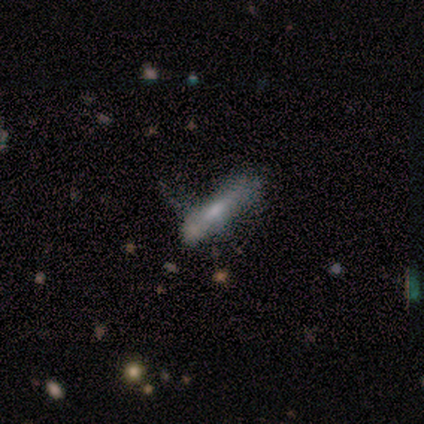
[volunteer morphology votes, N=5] smooth-or-featured: smooth: 60% | featured or disk: 40% | star or artifact: 0%
  how-rounded: cigar-shaped: 67% | in between: 33% | round: 0%
  merging: none: 40% (tied) | minor disturbance: 40% (tied) | major disturbance: 20% | merger: 0%